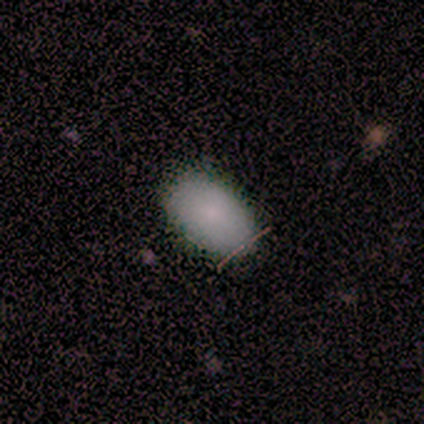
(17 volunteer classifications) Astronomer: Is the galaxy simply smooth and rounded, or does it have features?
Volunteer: smooth — 88%.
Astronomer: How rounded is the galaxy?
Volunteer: in between — 100%.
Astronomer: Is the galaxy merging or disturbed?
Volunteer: none — 88%.